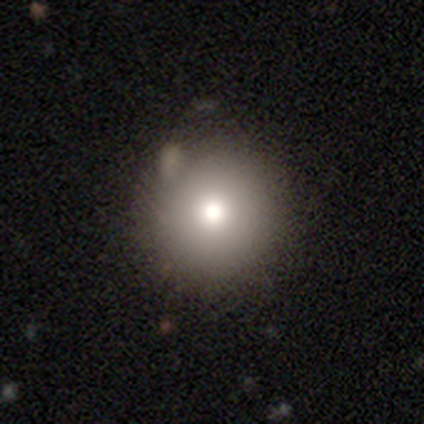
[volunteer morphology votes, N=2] Consensus on every question: smooth or featured — smooth (100%); how rounded — round (100%); merging — none (100%).